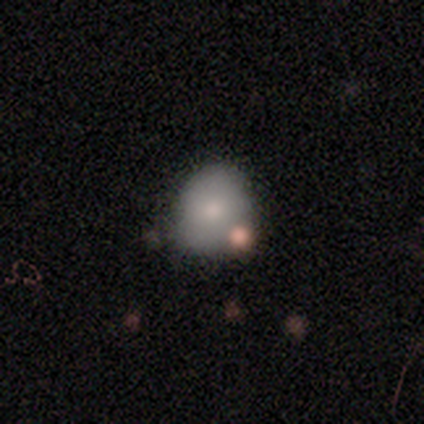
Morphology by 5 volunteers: Smooth or featured? smooth (100%)
How rounded? round (60%)
Merging? none (40%)